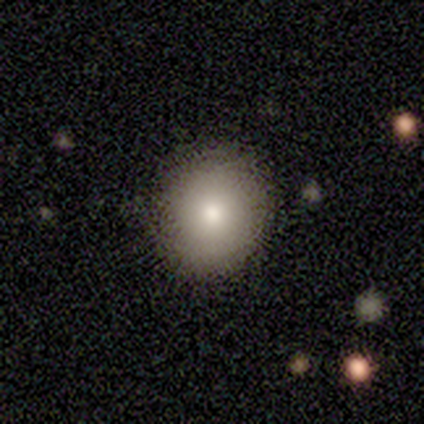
Smooth or featured? 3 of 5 (60%) said smooth. How rounded? 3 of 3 (100%) said round. Merging? 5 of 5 (100%) said none.